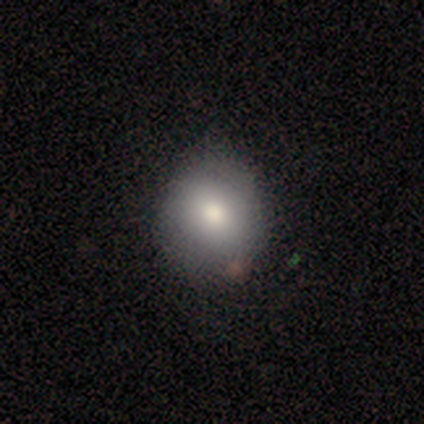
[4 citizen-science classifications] smooth-or-featured: smooth: 100% | featured or disk: 0% | star or artifact: 0%
  how-rounded: round: 75% | in between: 25% | cigar-shaped: 0%
  merging: none: 50% (tied) | minor disturbance: 50% (tied) | major disturbance: 0% | merger: 0%